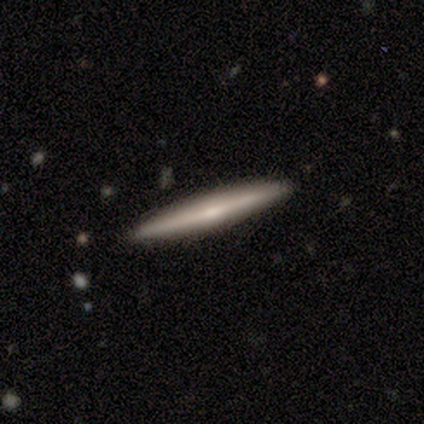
smooth 80%, featured or disk 20%, star or artifact 0%. Down the decision tree: how rounded — cigar-shaped (100%); merging — none (100%).